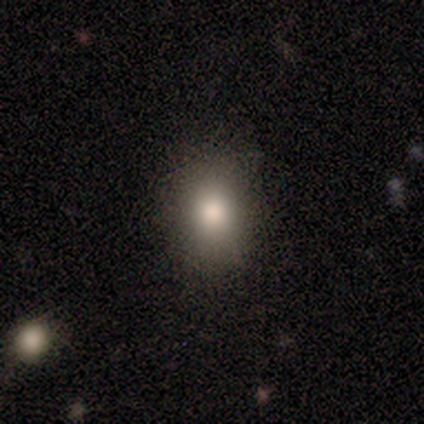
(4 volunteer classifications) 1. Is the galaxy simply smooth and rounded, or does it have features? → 75% smooth, 25% featured or disk, 0% star or artifact.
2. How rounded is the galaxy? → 67% in between, 33% round, 0% cigar-shaped.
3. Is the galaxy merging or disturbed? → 75% none, 25% minor disturbance, 0% major disturbance, 0% merger.